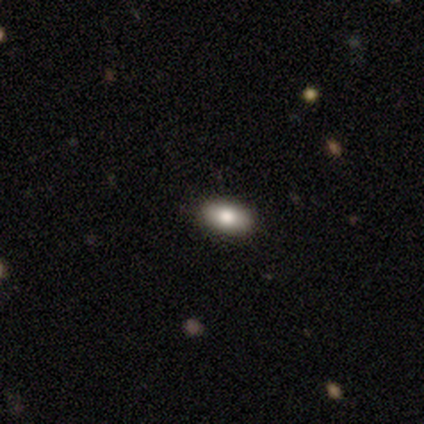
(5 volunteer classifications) Smooth or featured?
  - smooth: 100% *
  - featured or disk: 0%
  - star or artifact: 0%
How rounded?
  - in between: 80% *
  - cigar-shaped: 20%
  - round: 0%
Merging?
  - none: 80% *
  - major disturbance: 20%
  - minor disturbance: 0%
  - merger: 0%